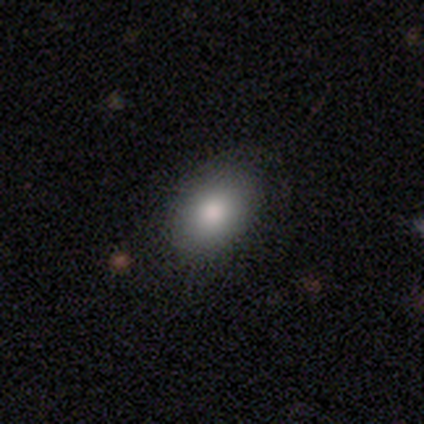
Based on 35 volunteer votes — Smooth or featured? 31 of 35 (89%) said smooth. How rounded? 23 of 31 (74%) said in between. Merging? 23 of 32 (72%) said none.